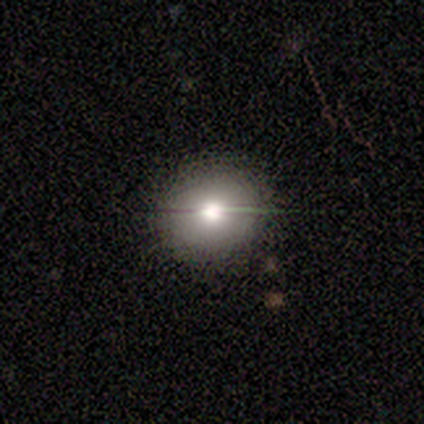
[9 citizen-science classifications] Smooth or featured?
  - smooth: 67% *
  - featured or disk: 22%
  - star or artifact: 11%
How rounded?
  - round: 67% *
  - in between: 33%
  - cigar-shaped: 0%
Merging?
  - none: 100% *
  - minor disturbance: 0%
  - major disturbance: 0%
  - merger: 0%